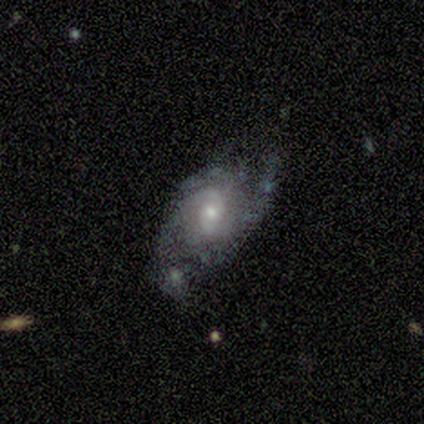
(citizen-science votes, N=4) Smooth or featured? 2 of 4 (50%, tied with featured or disk) said smooth. How rounded? 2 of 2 (100%) said in between. Merging? 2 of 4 (50%, tied with major disturbance) said none.